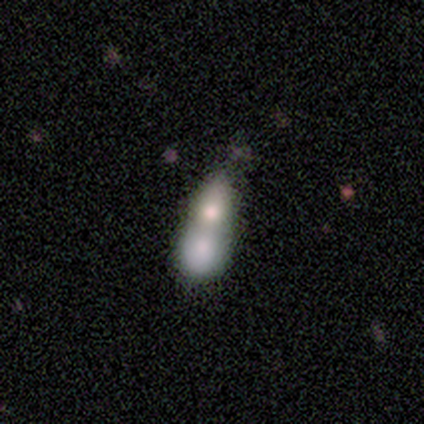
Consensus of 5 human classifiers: A smooth galaxy with no disk features (80%) that is cigar-shaped (50%). Merging: merger (80%).